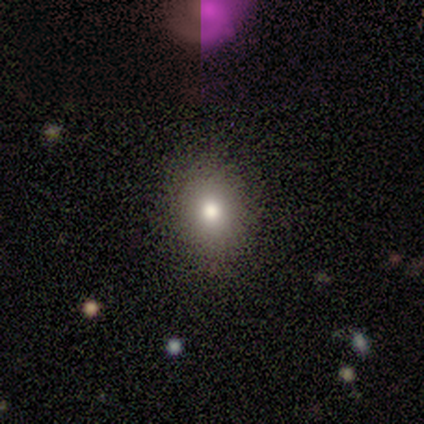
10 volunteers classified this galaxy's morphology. A smooth galaxy with no disk features (100%) that is round (70%).

Vote fractions:
- Smooth or featured? smooth: 100% / featured or disk: 0% / star or artifact: 0%
- How rounded? round: 70% / in between: 30% / cigar-shaped: 0%
- Merging? none: 80% / minor disturbance: 10% / major disturbance: 10% / merger: 0%